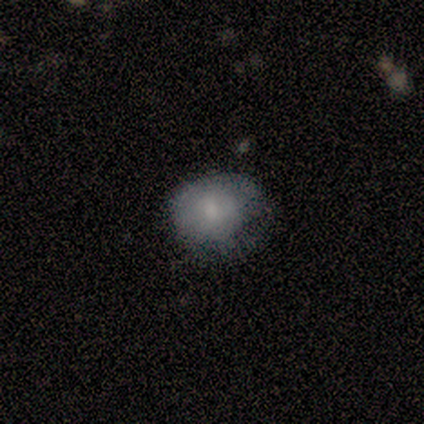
Q: Smooth or featured?
A: smooth (60%); runner-up: featured or disk (40%)
Q: How rounded?
A: round (100%)
Q: Merging?
A: none (80%); runner-up: minor disturbance (20%)